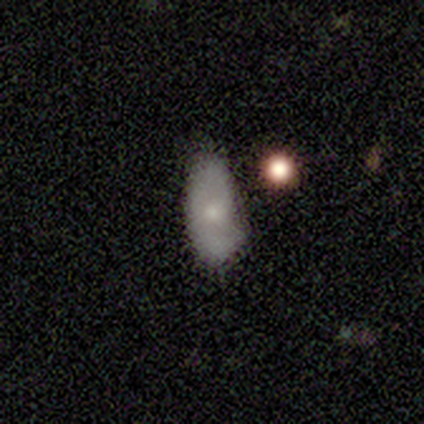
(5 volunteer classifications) Smooth or featured: smooth — 60% (featured or disk — 40%)
How rounded: in between — 100%
Merging: none — 40% (tied with minor disturbance — 40%)